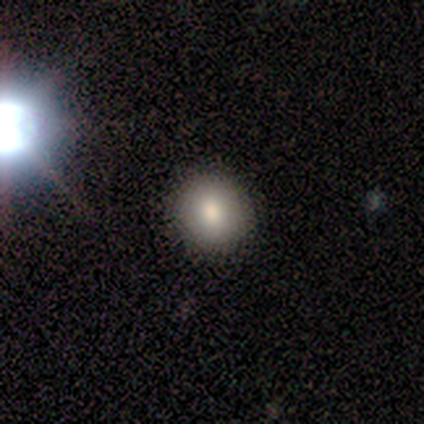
Volunteers were most divided on "smooth or featured": smooth: 60%, featured or disk: 40%, star or artifact: 0%. More confident: merging — none (80%); how rounded — round (67%).